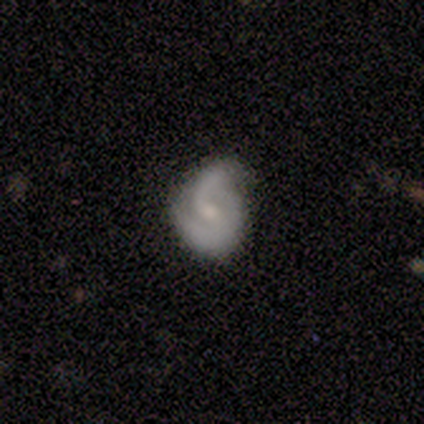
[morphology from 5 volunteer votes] Smooth or featured: featured or disk — 60% (smooth — 40%)
Edge-on disk: no — 100%
Bar: strong — 33% (tied with weak — 33%; no — 33%)
Spiral arms: yes — 100%
Spiral winding: loose — 67% (medium — 33%)
Spiral arm count: 2 — 100%
Bulge size: moderate — 67% (small — 33%)
Merging: none — 80% (minor disturbance — 20%)